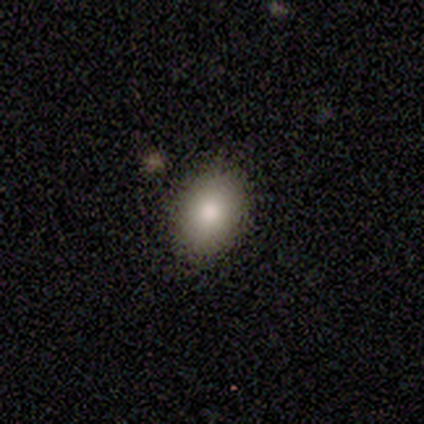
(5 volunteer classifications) This appears to be a smooth galaxy with no disk features (80%) that is in between round and cigar-shaped (75%). Merging: none (80%).